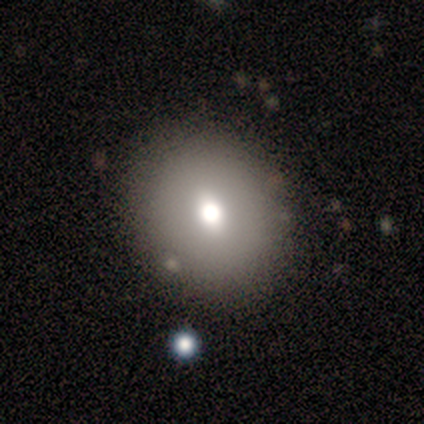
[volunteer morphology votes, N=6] smooth 50%, featured or disk 33%, star or artifact 17%. Down the decision tree: how rounded — round (100%); merging — none (100%).